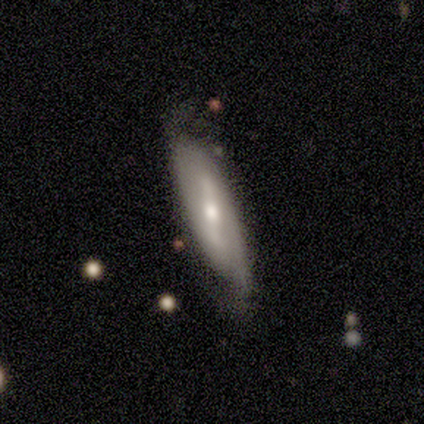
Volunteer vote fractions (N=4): This appears to be a featured or disk galaxy (100%) with a strong bar (100%), 2 (100%) tight (50%, tied with medium) spiral arms (67%) and a moderate central bulge (100%). Merging: none (50%).